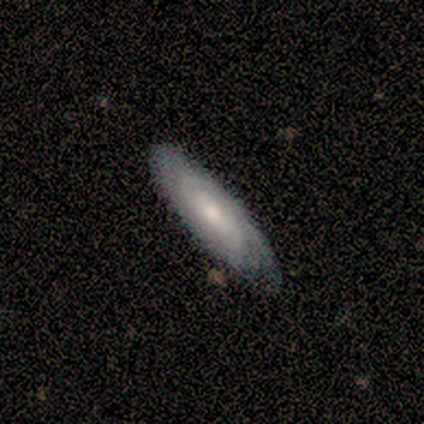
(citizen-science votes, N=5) A featured or disk galaxy (60%) with no bar (67%), tight (50%, tied with medium) spiral arms (67%) and a small central bulge (67%).

Vote fractions:
- Smooth or featured? featured or disk: 60% / smooth: 40% / star or artifact: 0%
- Edge-on disk? no: 100% / yes: 0%
- Bar? no: 67% / weak: 33% / strong: 0%
- Spiral arms? yes: 67% / no: 33%
- Spiral winding? tight: 50% (tied) / medium: 50% (tied) / loose: 0%
- Spiral arm count? can't tell: 100% / 1: 0% / 2: 0% / 3: 0% / 4: 0% / more than 4: 0%
- Bulge size? small: 67% / moderate: 33% / dominant: 0% / large: 0% / none: 0%
- Merging? none: 80% / minor disturbance: 20% / major disturbance: 0% / merger: 0%